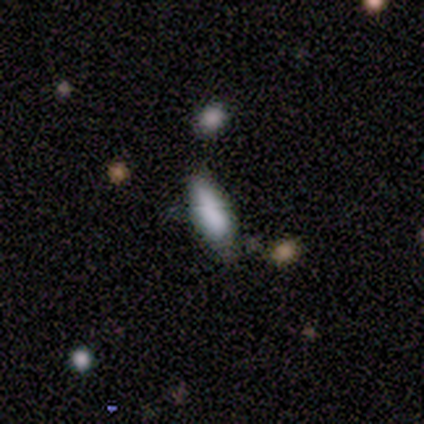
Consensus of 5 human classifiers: Volunteers were most divided on "how rounded": cigar-shaped: 60%, in between: 40%, round: 0%. More confident: smooth or featured — smooth (100%); merging — none (60%).